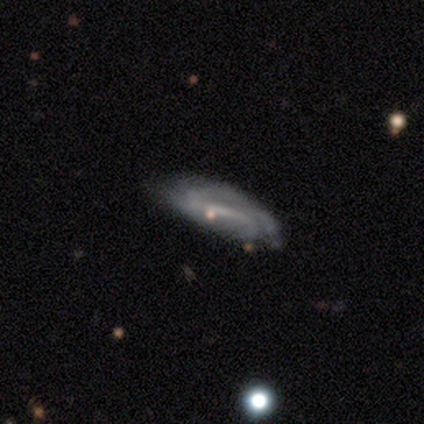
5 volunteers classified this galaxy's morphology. Q: Smooth or featured?
A: featured or disk (80%); runner-up: star or artifact (20%)
Q: Edge-on disk?
A: no (100%)
Q: Bar?
A: strong (75%); runner-up: weak (25%)
Q: Spiral arms?
A: yes (75%); runner-up: no (25%)
Q: Spiral winding?
A: medium (67%); runner-up: loose (33%)
Q: Spiral arm count?
A: 1 (33%); tied with: 4 (33%); can't tell (33%)
Q: Bulge size?
A: small (50%); tied with: none (50%)
Q: Merging?
A: none (100%)